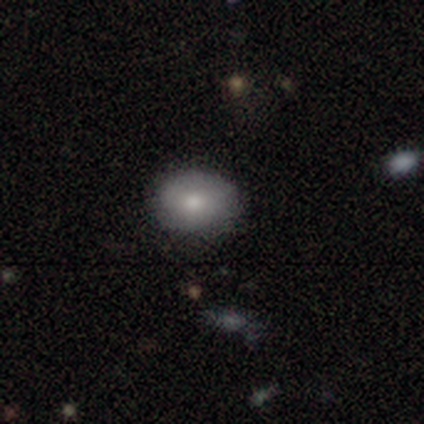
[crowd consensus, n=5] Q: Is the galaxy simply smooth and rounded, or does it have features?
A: smooth — 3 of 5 (60%).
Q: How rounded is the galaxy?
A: in between — 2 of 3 (67%).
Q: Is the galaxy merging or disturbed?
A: none — 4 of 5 (80%).